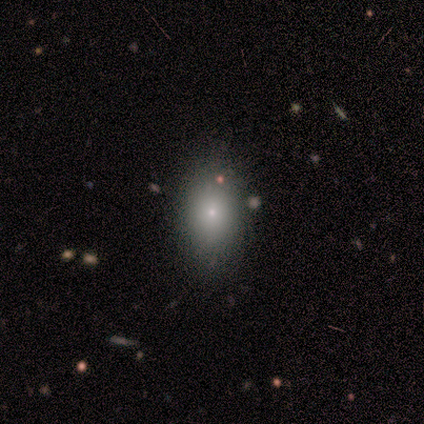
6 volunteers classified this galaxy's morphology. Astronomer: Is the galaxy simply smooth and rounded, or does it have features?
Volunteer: smooth — 100%.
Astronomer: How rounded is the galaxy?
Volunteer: in between — 100%.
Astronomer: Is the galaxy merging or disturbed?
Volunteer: none — 83%.